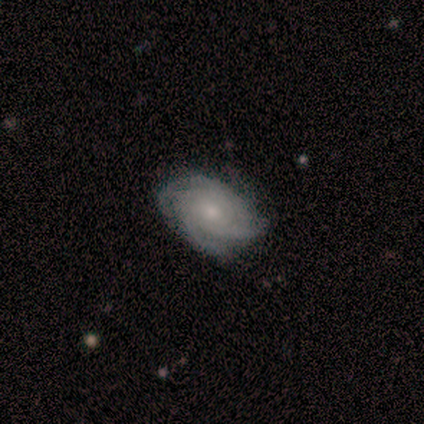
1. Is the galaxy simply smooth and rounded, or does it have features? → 80% featured or disk, 20% smooth, 0% star or artifact.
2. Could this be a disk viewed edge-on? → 100% no, 0% yes.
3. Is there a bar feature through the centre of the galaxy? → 50% no, 25% strong, 25% weak.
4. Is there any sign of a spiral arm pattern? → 100% yes, 0% no.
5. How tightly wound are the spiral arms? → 75% tight, 25% medium, 0% loose.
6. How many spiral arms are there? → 50% 4, 25% 3, 25% can't tell, 0% 1, 0% 2, 0% more than 4.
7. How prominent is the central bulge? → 50% small, 25% moderate, 25% none, 0% dominant, 0% large.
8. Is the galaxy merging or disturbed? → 100% none, 0% minor disturbance, 0% major disturbance, 0% merger.